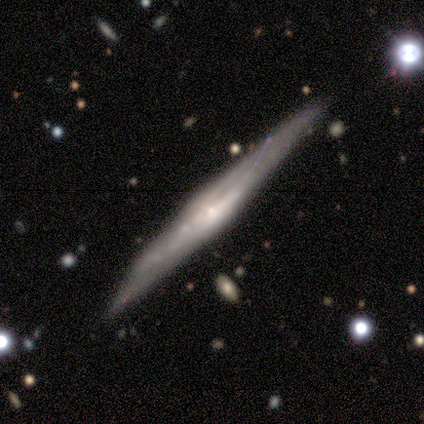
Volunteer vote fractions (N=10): A featured or disk galaxy (100%) viewed edge-on (90%) with a boxy central bulge (44%, tied with rounded).

Vote fractions:
- Smooth or featured? featured or disk: 100% / smooth: 0% / star or artifact: 0%
- Edge-on disk? yes: 90% / no: 10%
- Edge-on bulge? boxy: 44% (tied) / rounded: 44% (tied) / none: 11%
- Merging? none: 70% / minor disturbance: 30% / major disturbance: 0% / merger: 0%